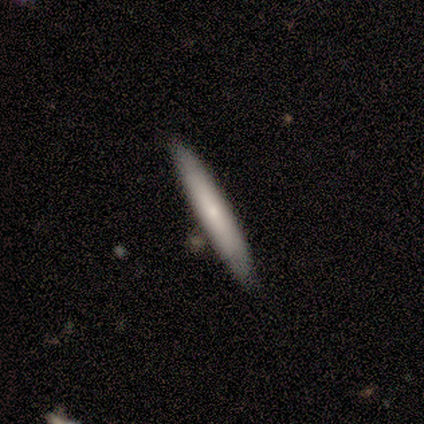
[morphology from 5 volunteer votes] smooth_or_featured: smooth (p=0.40) [tied with: featured or disk p=0.40]
how_rounded: cigar-shaped (p=1.00)
merging: none (p=1.00)